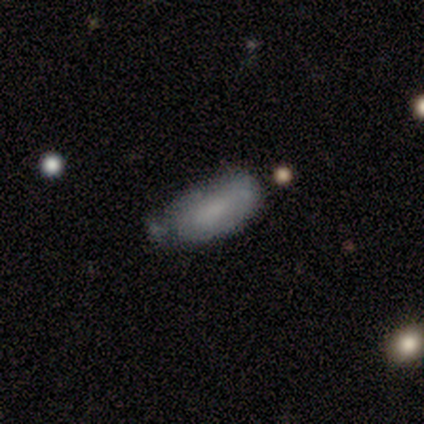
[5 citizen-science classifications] Q: Smooth or featured?
A: smooth (100%)
Q: How rounded?
A: in between (60%); runner-up: cigar-shaped (40%)
Q: Merging?
A: minor disturbance (60%); runner-up: none (20%)